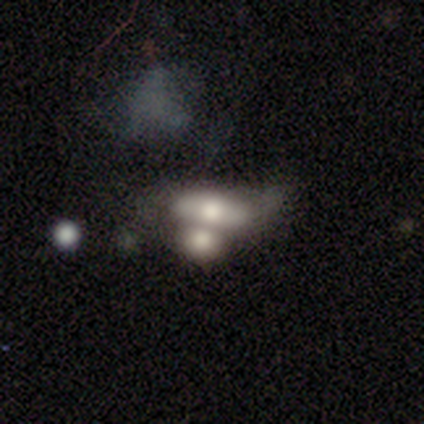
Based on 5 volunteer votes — Smooth or featured?
  - featured or disk: 60% *
  - smooth: 20%
  - star or artifact: 20%
Edge-on disk?
  - no: 100% *
  - yes: 0%
Bar?
  - strong: 33% * (tied)
  - weak: 33% * (tied)
  - no: 33% * (tied)
Spiral arms?
  - no: 67% *
  - yes: 33%
Bulge size?
  - moderate: 67% *
  - large: 33%
  - dominant: 0%
  - small: 0%
  - none: 0%
Merging?
  - major disturbance: 75% *
  - merger: 25%
  - none: 0%
  - minor disturbance: 0%